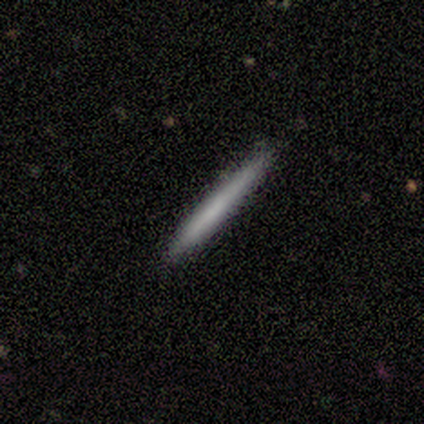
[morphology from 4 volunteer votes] Smooth or featured? smooth (100%)
How rounded? cigar-shaped (100%)
Merging? none (100%)